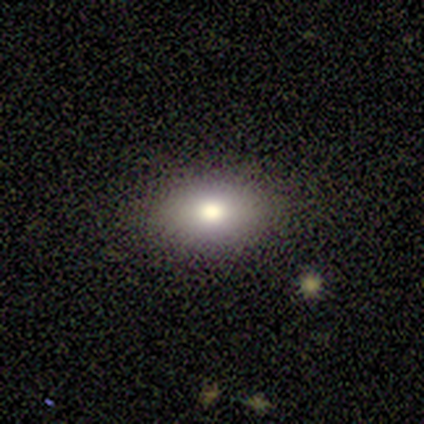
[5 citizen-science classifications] Smooth or featured? smooth (80%)
How rounded? in between (75%)
Merging? none (75%)